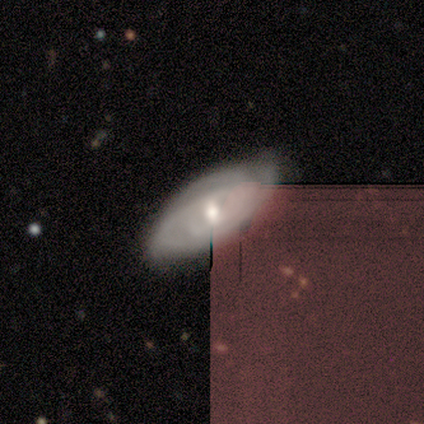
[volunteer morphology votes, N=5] smooth_or_featured: featured or disk (p=0.80) [alt: smooth p=0.20]
disk_edge_on: no (p=1.00)
bar: weak (p=0.50) [tied with: no p=0.50]
has_spiral_arms: yes (p=1.00)
spiral_winding: tight (p=0.75) [alt: medium p=0.25]
spiral_arm_count: 3 (p=0.50) [tied with: can't tell p=0.50]
bulge_size: moderate (p=1.00)
merging: none (p=0.80) [alt: minor disturbance p=0.20]